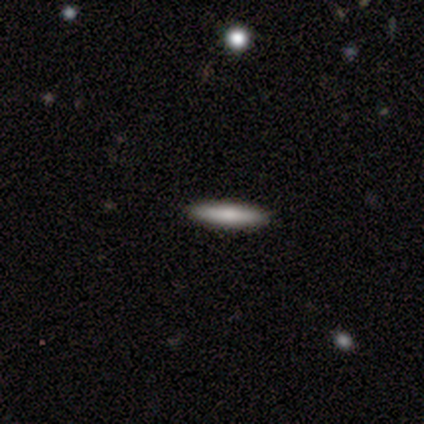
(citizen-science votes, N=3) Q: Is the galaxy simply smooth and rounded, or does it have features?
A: smooth — 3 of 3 (100%).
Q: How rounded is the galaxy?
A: cigar-shaped — 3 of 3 (100%).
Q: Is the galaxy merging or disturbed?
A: none — 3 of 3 (100%).